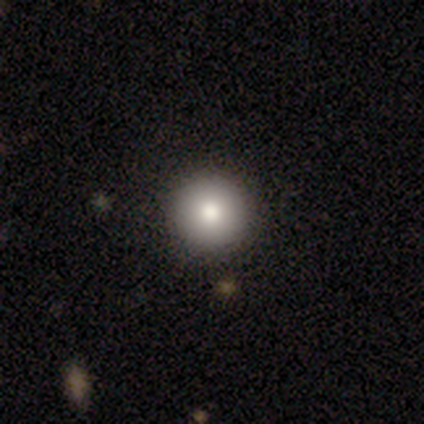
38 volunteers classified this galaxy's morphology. Q: Smooth or featured?
A: smooth (68%); runner-up: star or artifact (21%)
Q: How rounded?
A: round (96%); runner-up: in between (4%)
Q: Merging?
A: none (97%); runner-up: minor disturbance (3%)